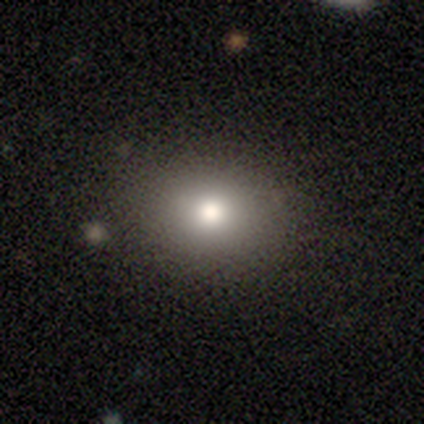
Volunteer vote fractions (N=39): Volunteers were most divided on "how rounded": round: 62%, in between: 38%, cigar-shaped: 0%. More confident: merging — none (91%); smooth or featured — smooth (74%).